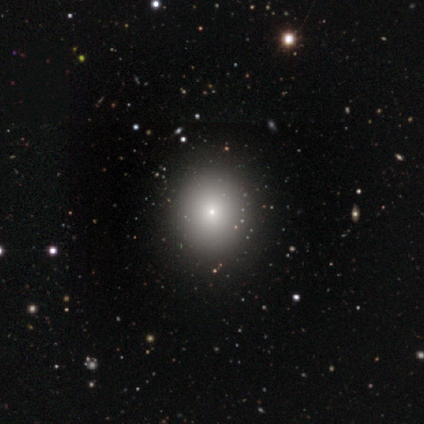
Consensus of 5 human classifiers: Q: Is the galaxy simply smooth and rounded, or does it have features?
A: smooth — 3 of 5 (60%).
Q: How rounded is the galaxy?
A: round — 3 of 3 (100%).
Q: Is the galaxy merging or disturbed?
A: none — 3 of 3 (100%).